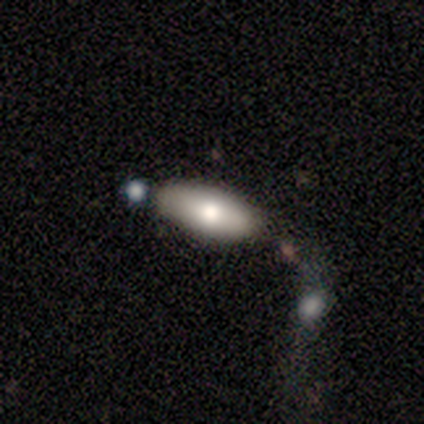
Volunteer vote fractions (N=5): Smooth or featured? 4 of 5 (80%) said smooth. How rounded? 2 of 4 (50%, tied with cigar-shaped) said in between. Merging? 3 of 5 (60%) said none.